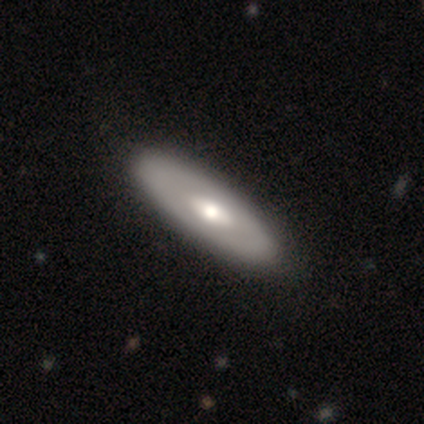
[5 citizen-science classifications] A featured or disk galaxy (60%) with no bar (100%), no spiral arms (100%) and a large central bulge (50%, tied with moderate). Merging: none (100%).